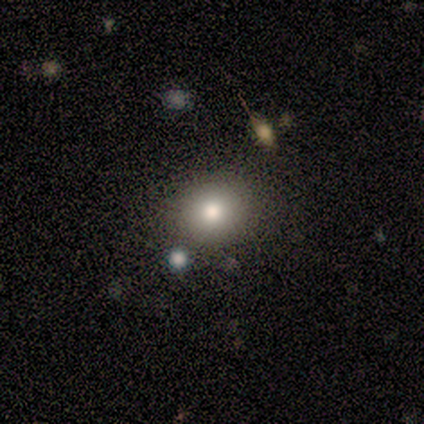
Volunteers were most divided on "smooth or featured" (2-way tie): smooth: 43%, star or artifact: 43%, featured or disk: 14%. More confident: how rounded — round (100%); merging — none (75%).